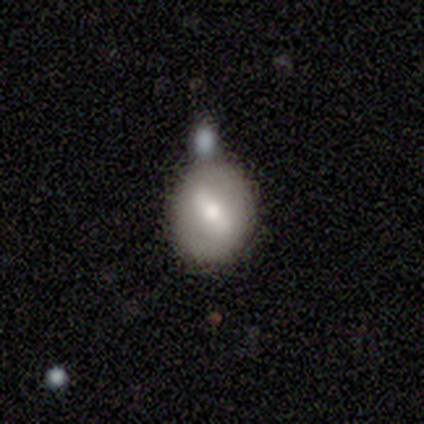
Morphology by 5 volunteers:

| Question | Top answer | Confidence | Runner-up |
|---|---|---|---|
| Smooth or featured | featured or disk | 80% | smooth (20%) |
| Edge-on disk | no | 100% | — |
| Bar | strong | 50% | weak (25%) |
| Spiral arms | no | 100% | — |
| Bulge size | moderate | 100% | — |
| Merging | minor disturbance | 40% | tied: merger (40%) |